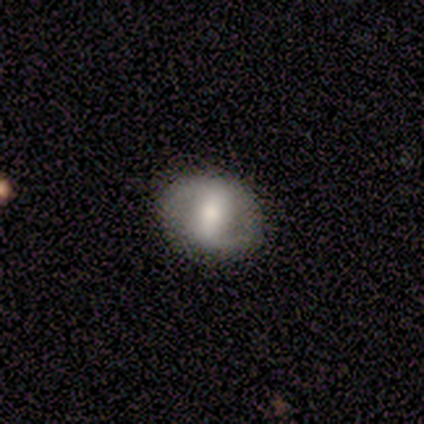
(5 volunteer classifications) Smooth or featured? featured or disk (60%)
Edge-on disk? no (100%)
Bar? weak (100%)
Spiral arms? yes (100%)
Spiral winding? tight (33%, tied with medium and loose)
Spiral arm count? 2 (67%)
Bulge size? moderate (100%)
Merging? none (100%)